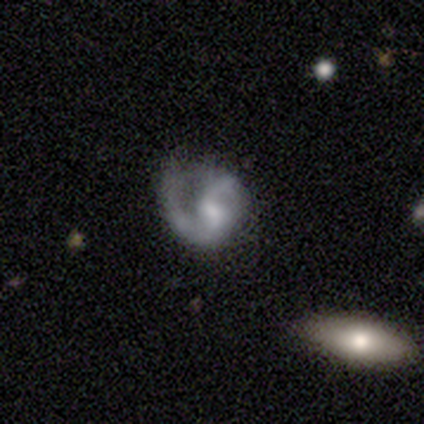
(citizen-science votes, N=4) Smooth or featured? featured or disk (100%)
Edge-on disk? no (100%)
Bar? weak (50%, tied with no)
Spiral arms? yes (100%)
Spiral winding? loose (75%)
Spiral arm count? 2 (100%)
Bulge size? moderate (50%, tied with small)
Merging? minor disturbance (75%)